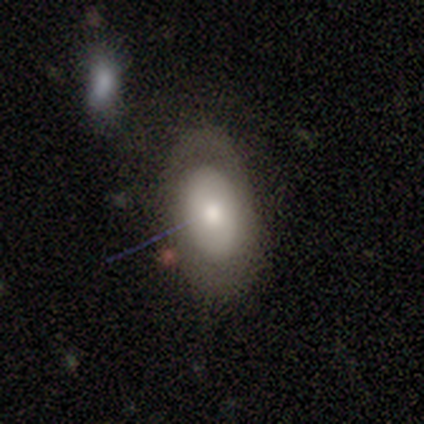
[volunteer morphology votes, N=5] Smooth or featured: smooth — 60% (featured or disk — 40%)
How rounded: in between — 100%
Merging: none — 60% (minor disturbance — 20%)